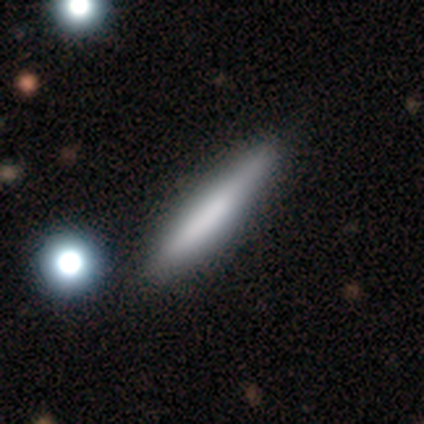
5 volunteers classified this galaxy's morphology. This is clearly a smooth galaxy (80%). How rounded: likely cigar-shaped (75%). Merging: clearly none (80%).